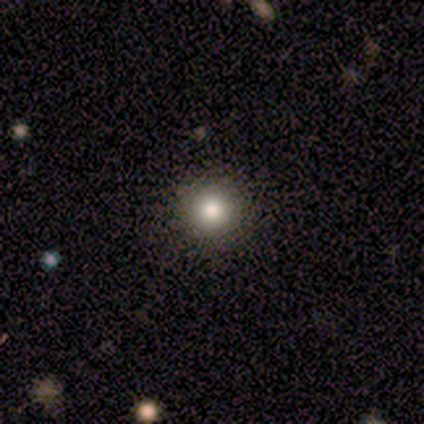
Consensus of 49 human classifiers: smooth-or-featured: smooth: 84% | featured or disk: 12% | star or artifact: 4%
  how-rounded: round: 98% | in between: 2% | cigar-shaped: 0%
  merging: none: 98% | minor disturbance: 2% | major disturbance: 0% | merger: 0%